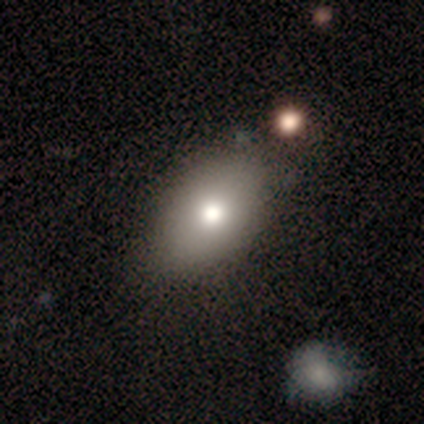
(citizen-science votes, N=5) Smooth or featured? smooth (80%)
How rounded? in between (100%)
Merging? none (60%)